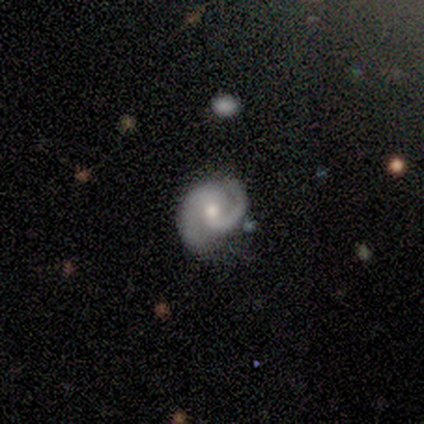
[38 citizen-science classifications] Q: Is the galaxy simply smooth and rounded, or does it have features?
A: featured or disk — 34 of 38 (89%).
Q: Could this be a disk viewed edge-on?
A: no — 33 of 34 (97%).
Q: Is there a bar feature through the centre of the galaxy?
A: no — 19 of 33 (58%).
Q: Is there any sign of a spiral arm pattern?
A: yes — 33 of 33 (100%).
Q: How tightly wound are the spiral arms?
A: medium — 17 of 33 (52%).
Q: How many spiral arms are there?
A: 2 — 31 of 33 (94%).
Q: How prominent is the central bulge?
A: moderate — 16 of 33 (48%).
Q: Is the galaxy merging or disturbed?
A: none — 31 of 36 (86%).